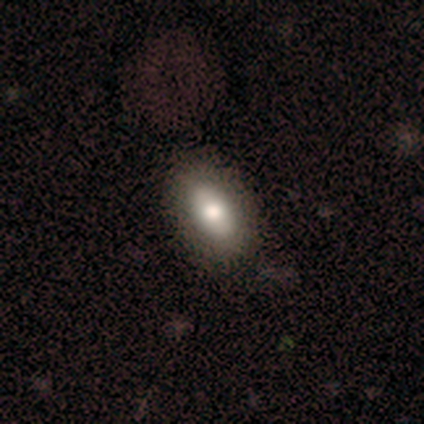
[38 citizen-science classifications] Smooth or featured: smooth — 74% (featured or disk — 26%)
How rounded: in between — 93% (round — 7%)
Merging: none — 71% (minor disturbance — 8%)